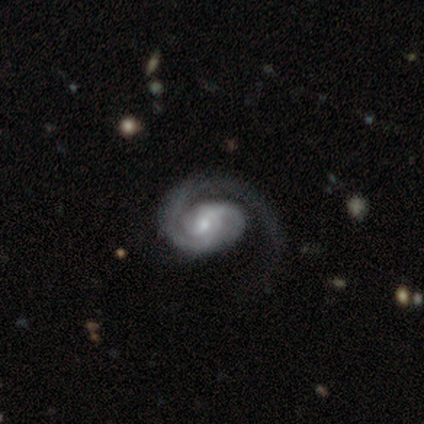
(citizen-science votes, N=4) smooth-or-featured: featured or disk: 100% | smooth: 0% | star or artifact: 0%
  disk-edge-on: no: 100% | yes: 0%
    bar: weak: 50% (tied) | no: 50% (tied) | strong: 0%
    has-spiral-arms: yes: 100% | no: 0%
      spiral-winding: tight: 75% | medium: 25% | loose: 0%
      spiral-arm-count: 1: 50% (tied) | 2: 50% (tied) | 3: 0% | 4: 0% | more than 4: 0% | can't tell: 0%
    bulge-size: moderate: 75% | small: 25% | dominant: 0% | large: 0% | none: 0%
  merging: none: 50% (tied) | major disturbance: 50% (tied) | minor disturbance: 0% | merger: 0%